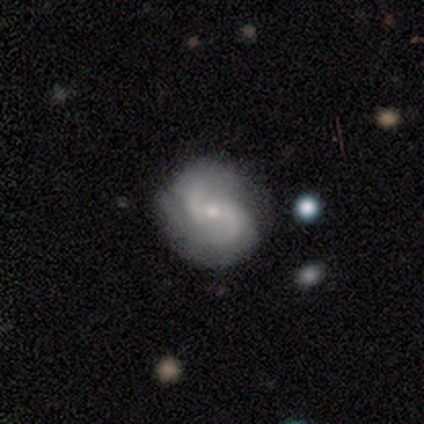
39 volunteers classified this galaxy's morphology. Volunteers were most divided on "spiral winding" (2-way tie): medium: 40%, loose: 40%, tight: 20%. Remaining: edge-on disk — no (100%); spiral arms — yes (100%); smooth or featured — featured or disk (90%); spiral arm count — 2 (86%); merging — none (64%); bulge size — small (54%); bar — no (49%).